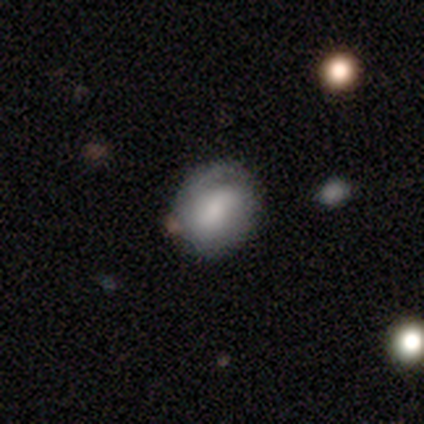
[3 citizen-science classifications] smooth_or_featured: smooth (p=0.67) [alt: featured or disk p=0.33]
how_rounded: round (p=0.50) [tied with: in between p=0.50]
merging: none (p=0.67) [alt: major disturbance p=0.33]